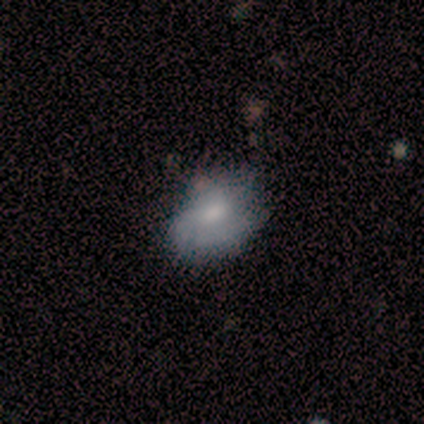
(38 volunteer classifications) This is likely a smooth galaxy (61%). How rounded: possibly in between (57%). Merging: likely none (61%).